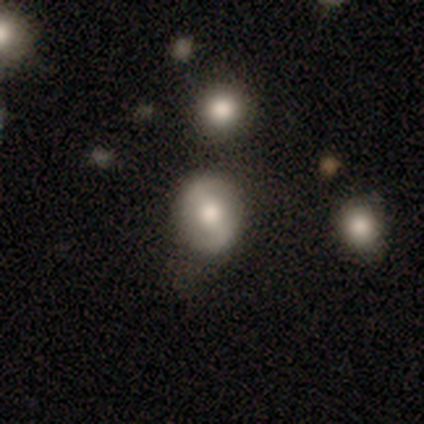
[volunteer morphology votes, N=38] A featured or disk galaxy (58%) with a strong bar (48%), 2 (92%) loose (46%) spiral arms (62%) and a moderate central bulge (62%).

Vote fractions:
- Smooth or featured? featured or disk: 58% / smooth: 32% / star or artifact: 11%
- Edge-on disk? no: 95% / yes: 5%
- Bar? strong: 48% / weak: 29% / no: 24%
- Spiral arms? yes: 62% / no: 38%
- Spiral winding? loose: 46% / tight: 38% / medium: 15%
- Spiral arm count? 2: 92% / can't tell: 8% / 1: 0% / 3: 0% / 4: 0% / more than 4: 0%
- Bulge size? moderate: 62% / large: 29% / small: 10% / dominant: 0% / none: 0%
- Merging? none: 68% / minor disturbance: 18% / merger: 12% / major disturbance: 3%